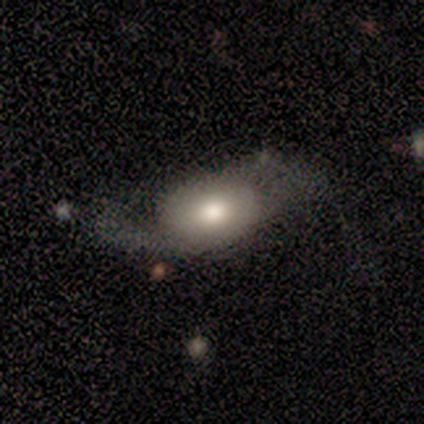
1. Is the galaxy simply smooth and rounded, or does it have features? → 60% smooth, 40% featured or disk, 0% star or artifact.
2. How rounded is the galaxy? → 67% in between, 33% round, 0% cigar-shaped.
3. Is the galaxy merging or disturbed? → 40% none (tied), 40% major disturbance (tied), 20% minor disturbance, 0% merger.